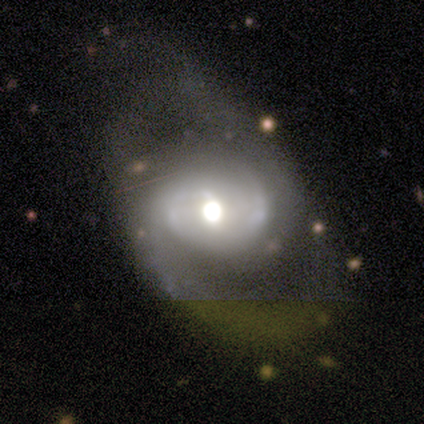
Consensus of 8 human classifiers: This appears to be a featured or disk galaxy (100%) with a weak bar (38%, tied with no), 2 (71%) medium (71%) spiral arms (88%) and a large central bulge (62%). Merging: none (75%).